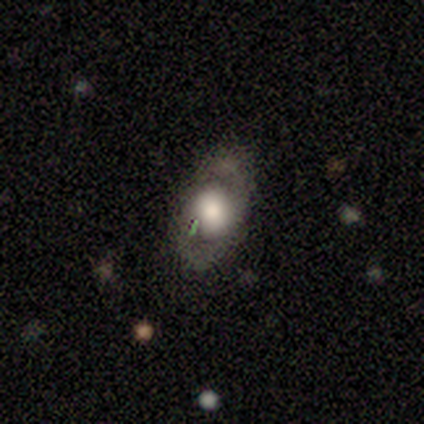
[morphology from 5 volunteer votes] A featured or disk galaxy (100%) with no bar (80%), no spiral arms (60%) and a dominant central bulge (40%, tied with moderate). Merging: none (100%).